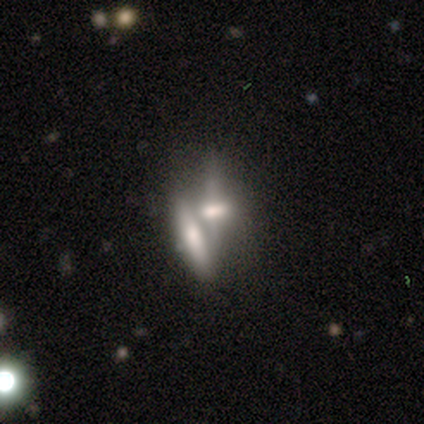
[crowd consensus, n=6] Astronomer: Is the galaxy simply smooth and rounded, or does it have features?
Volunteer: featured or disk — 50% (runner-up: smooth, 33%).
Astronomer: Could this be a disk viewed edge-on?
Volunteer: no — 100%.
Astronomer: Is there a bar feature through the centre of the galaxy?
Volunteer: weak — 67%.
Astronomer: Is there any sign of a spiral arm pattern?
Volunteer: no — 100%.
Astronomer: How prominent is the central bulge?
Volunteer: none — 67%.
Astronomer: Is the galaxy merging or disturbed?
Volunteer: merger — 100%.